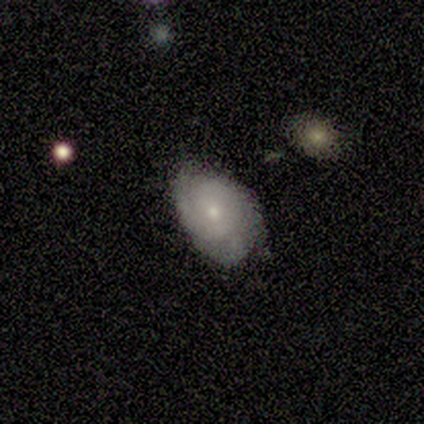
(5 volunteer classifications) This is clearly a featured or disk galaxy (80%). It is clearly not viewed edge-on (100%). Bar: possibly no (50%). Spiral arm pattern: clearly yes (100%). Spiral arm count: possibly can't tell (50%). Spiral winding: likely tight (75%). Central bulge: likely small (75%). Merging: clearly none (80%).